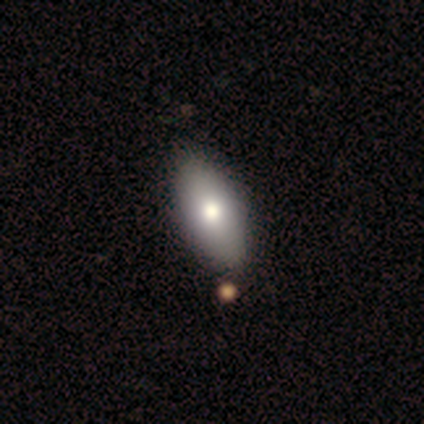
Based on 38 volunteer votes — Volunteers were most divided on "merging": none: 75%, merger: 11%, minor disturbance: 3%, major disturbance: 0%. More confident: how rounded — in between (94%); smooth or featured — smooth (87%).